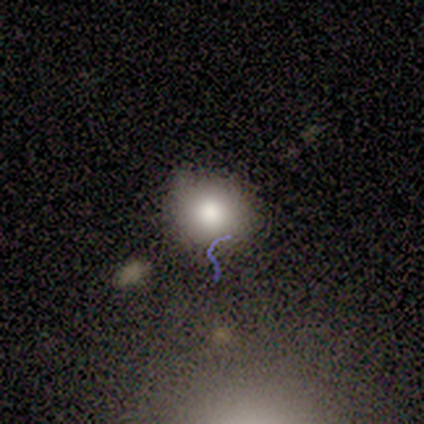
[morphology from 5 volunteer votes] Smooth or featured? 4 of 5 (80%) said smooth. How rounded? 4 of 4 (100%) said round. Merging? 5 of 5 (100%) said none.